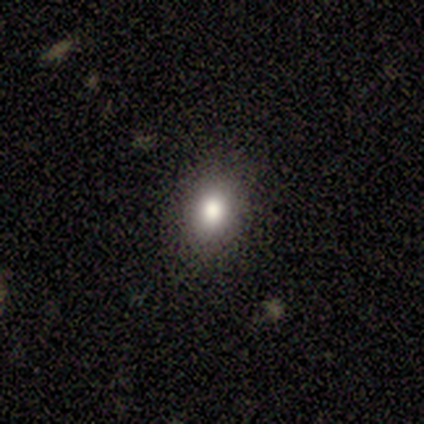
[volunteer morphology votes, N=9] Overall: smooth (78%). How rounded: round (57%; in between 43%). Merging: none (100%).